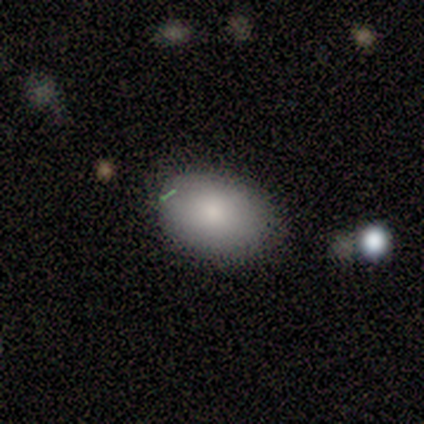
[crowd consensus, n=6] A smooth galaxy with no disk features (100%) that is in between round and cigar-shaped (83%). Merging: none (83%).